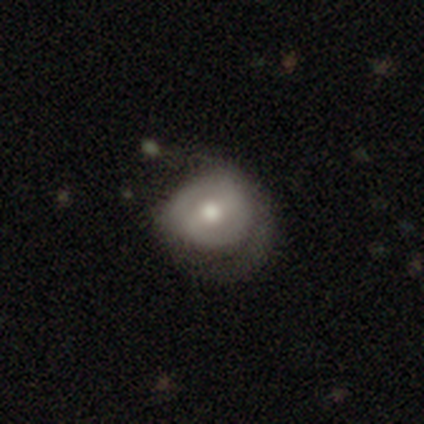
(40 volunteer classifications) Overall: featured or disk (60%; smooth 35%). Edge-on disk: no (100%). Bar: weak (58%; strong 25%). Spiral arms: yes (50%, tied with no). Spiral arm count: 2 (83%). Spiral winding: tight (67%). Bulge size: moderate (79%). Merging: minor disturbance (26%, tied with major disturbance).